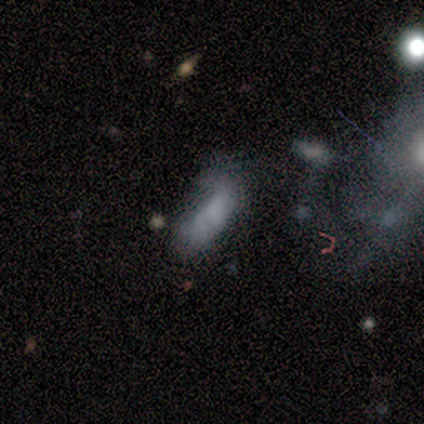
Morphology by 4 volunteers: smooth-or-featured: smooth: 100% | featured or disk: 0% | star or artifact: 0%
  how-rounded: in between: 100% | round: 0% | cigar-shaped: 0%
  merging: none: 25% (tied) | minor disturbance: 25% (tied) | major disturbance: 25% (tied) | merger: 25% (tied)